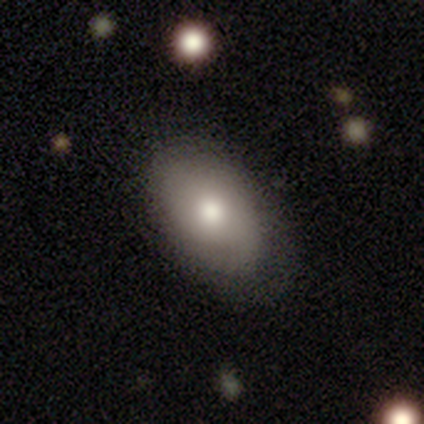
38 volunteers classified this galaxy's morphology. smooth 76%, featured or disk 21%, star or artifact 3%. Down the decision tree: how rounded — in between (97%); merging — none (73%).